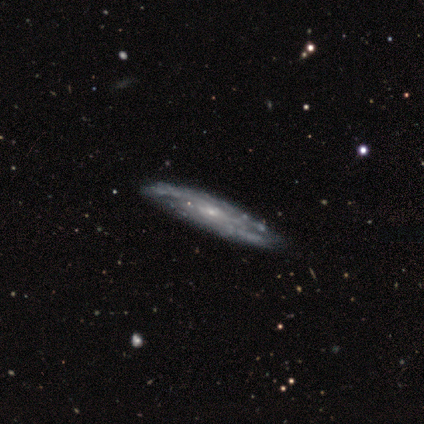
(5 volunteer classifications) smooth_or_featured: featured or disk (p=1.00)
disk_edge_on: no (p=0.80) [alt: yes p=0.20]
bar: no (p=0.75) [alt: weak p=0.25]
has_spiral_arms: yes (p=0.75) [alt: no p=0.25]
spiral_winding: tight (p=0.33) [tied with: medium p=0.33, loose p=0.33]
spiral_arm_count: 2 (p=0.67) [alt: can't tell p=0.33]
bulge_size: moderate (p=0.50) [tied with: small p=0.50]
merging: none (p=0.80) [alt: minor disturbance p=0.20]